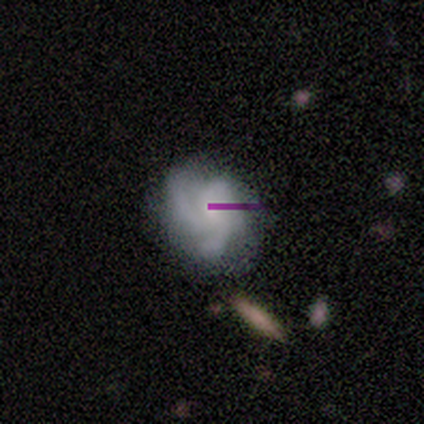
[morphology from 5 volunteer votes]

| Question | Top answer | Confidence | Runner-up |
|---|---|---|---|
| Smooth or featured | featured or disk | 80% | smooth (20%) |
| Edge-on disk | no | 100% | — |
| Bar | no | 100% | — |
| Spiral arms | yes | 75% | no (25%) |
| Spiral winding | tight | 33% | tied: medium (33%), loose (33%) |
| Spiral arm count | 3 | 100% | — |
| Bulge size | small | 75% | moderate (25%) |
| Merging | none | 60% | minor disturbance (40%) |